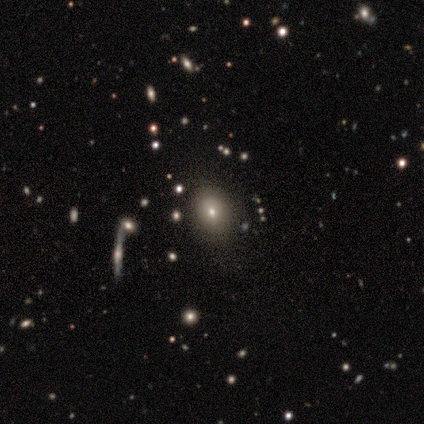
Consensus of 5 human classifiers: Volunteers were most divided on "smooth or featured": star or artifact: 60%, smooth: 40%, featured or disk: 0%.